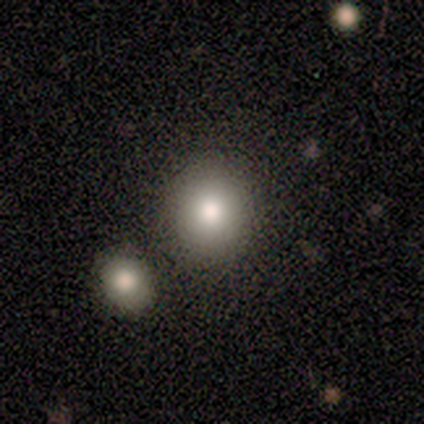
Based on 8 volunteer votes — Smooth or featured? smooth (75%)
How rounded? round (83%)
Merging? none (100%)